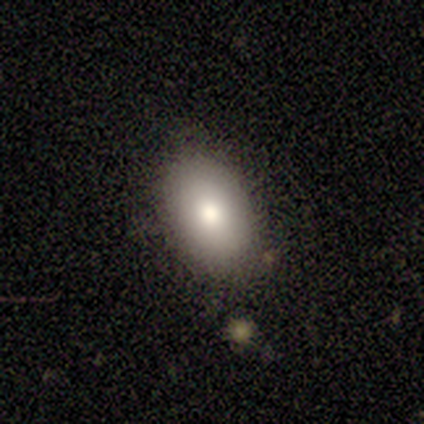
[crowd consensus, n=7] Morphology: type=smooth (100%); roundness=in between (100%); merging=none (71%).